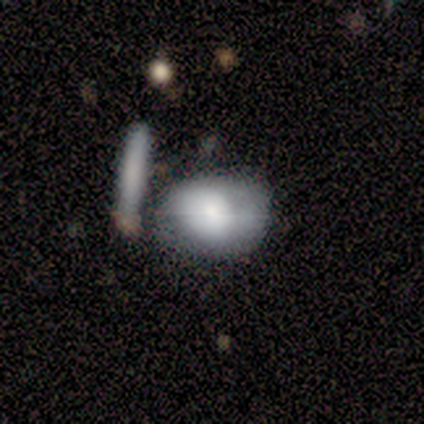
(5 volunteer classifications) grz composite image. It shows a smooth galaxy with no disk features (60%) that is in between round and cigar-shaped (100%). Merging: none (50%).